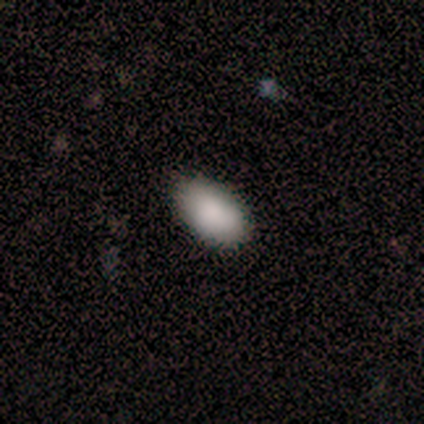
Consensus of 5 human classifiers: Smooth or featured? 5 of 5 (100%) said smooth. How rounded? 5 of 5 (100%) said in between. Merging? 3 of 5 (60%) said none.